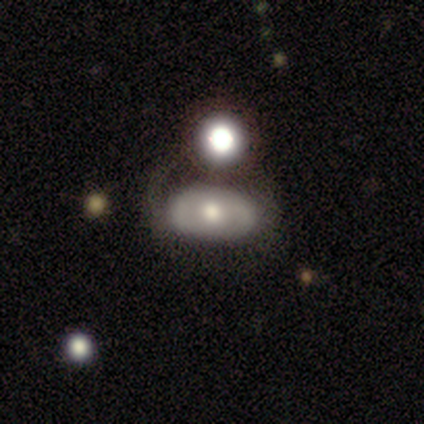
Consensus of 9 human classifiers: Smooth or featured? featured or disk (78%)
Edge-on disk? no (86%)
Bar? no (83%)
Spiral arms? no (67%)
Bulge size? moderate (67%)
Merging? none (78%)